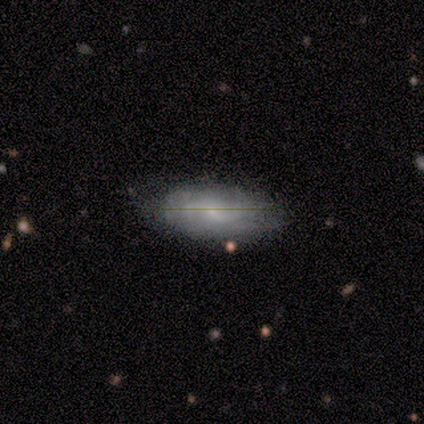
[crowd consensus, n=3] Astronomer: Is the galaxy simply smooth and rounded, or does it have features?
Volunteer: featured or disk — 67%.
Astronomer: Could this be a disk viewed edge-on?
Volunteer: no — 100%.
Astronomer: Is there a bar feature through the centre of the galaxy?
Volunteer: weak — 50%, tied with no at 50%.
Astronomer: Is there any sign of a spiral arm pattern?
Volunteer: yes — 100%.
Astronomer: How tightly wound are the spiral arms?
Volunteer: medium — 50%, tied with loose at 50%.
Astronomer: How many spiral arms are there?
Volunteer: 2 — 100%.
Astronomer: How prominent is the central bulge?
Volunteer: small — 100%.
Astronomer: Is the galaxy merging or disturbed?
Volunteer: minor disturbance — 67%.